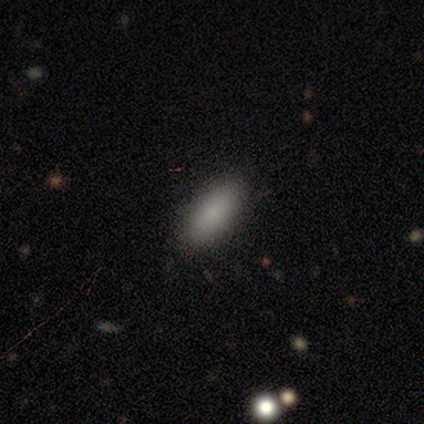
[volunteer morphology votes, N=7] Volunteers were most divided on "how rounded": in between: 86%, cigar-shaped: 14%, round: 0%. More confident: smooth or featured — smooth (100%); merging — none (100%).